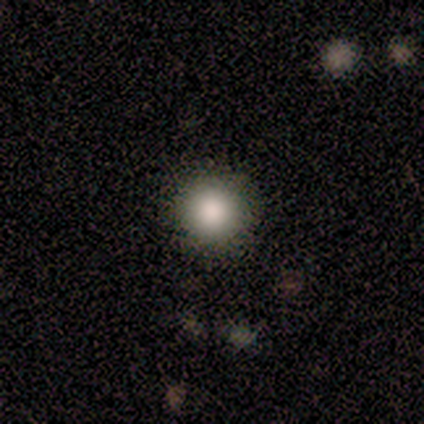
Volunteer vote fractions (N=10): This appears to be a smooth galaxy with no disk features (90%) that is round (100%). Merging: none (100%).